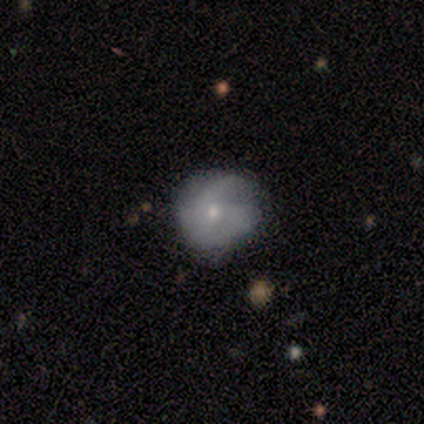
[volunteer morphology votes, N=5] type=featured or disk (60%); edge-on=no (100%); bar=no (100%); spiral arms=yes (67%); winding=tight (50%, tied with medium); arm count=3 (50%, tied with can't tell); bulge=moderate (67%); merging=none (80%).